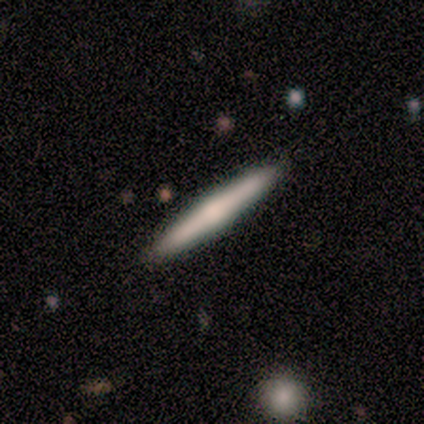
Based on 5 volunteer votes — Q: Smooth or featured?
A: featured or disk (60%); runner-up: smooth (40%)
Q: Edge-on disk?
A: yes (100%)
Q: Edge-on bulge?
A: rounded (67%); runner-up: none (33%)
Q: Merging?
A: none (100%)